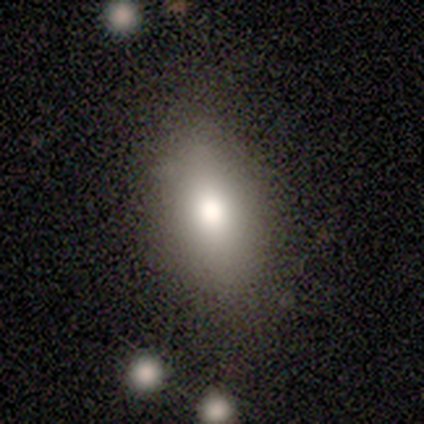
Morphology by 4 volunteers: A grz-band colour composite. It shows a smooth galaxy with no disk features (100%) that is in between round and cigar-shaped (100%). Merging: none (75%).